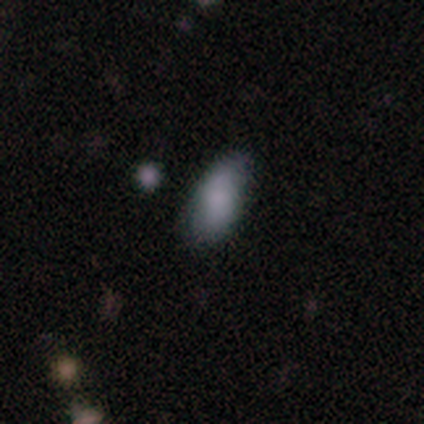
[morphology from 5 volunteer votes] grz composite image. It shows a smooth galaxy with no disk features (60%) that is in between round and cigar-shaped (100%). Merging: none (100%).